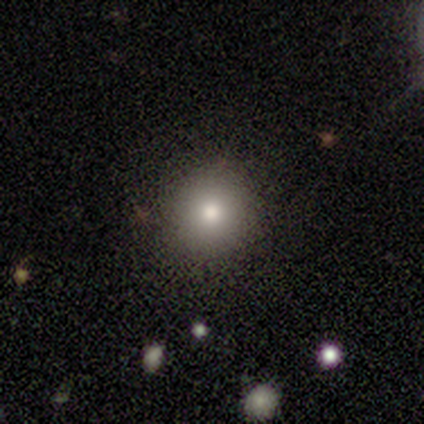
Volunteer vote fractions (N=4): smooth 50%, featured or disk 25%, star or artifact 25%. Down the decision tree: how rounded — round (100%); merging — none (100%).